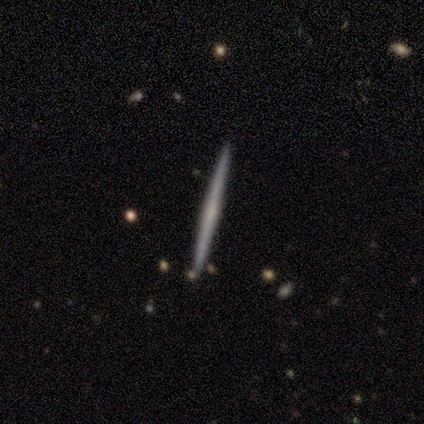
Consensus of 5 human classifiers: Smooth or featured? 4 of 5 (80%) said featured or disk. Edge-on disk? 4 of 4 (100%) said yes. Edge-on bulge? 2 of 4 (50%) said none. Merging? 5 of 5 (100%) said none.